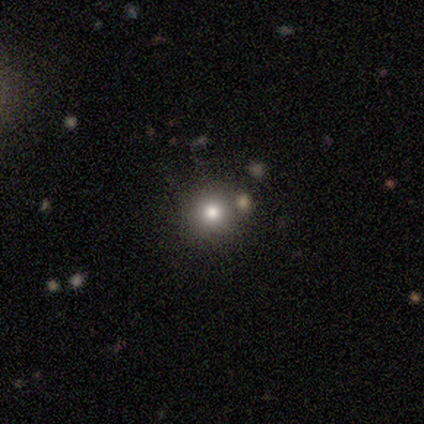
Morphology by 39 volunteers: type=smooth (64%); roundness=round (96%); merging=none (86%).